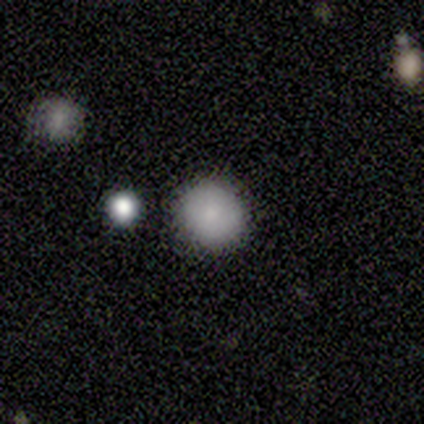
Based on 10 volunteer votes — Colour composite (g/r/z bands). It shows a smooth galaxy with no disk features (100%) that is round (100%). Merging: none (90%).